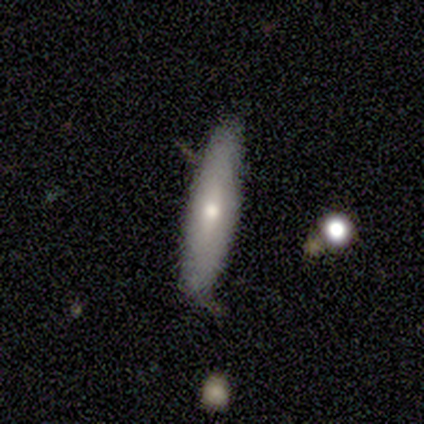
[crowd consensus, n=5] This appears to be a smooth galaxy with no disk features (60%) that is cigar-shaped (100%). Merging: none (60%).